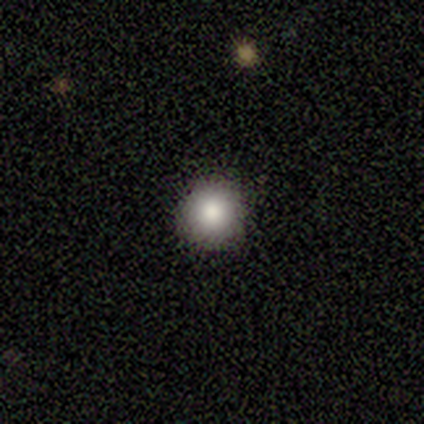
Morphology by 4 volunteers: This appears to be a smooth galaxy with no disk features (50%, tied with star or artifact) that is round (100%). Merging: none (100%).